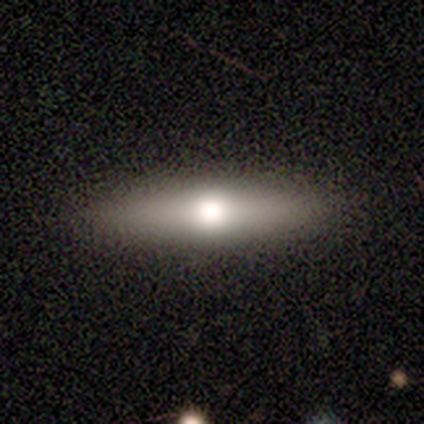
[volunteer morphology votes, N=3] This appears to be a featured or disk galaxy (67%) viewed edge-on (100%) with a rounded central bulge (100%). Merging: none (67%).